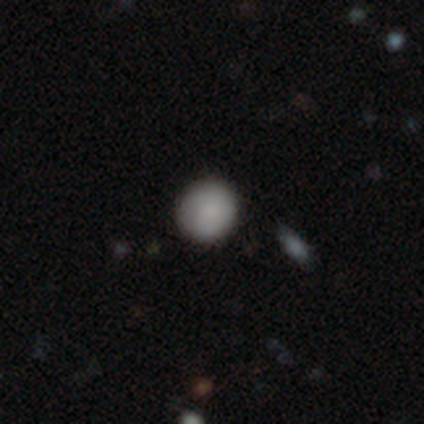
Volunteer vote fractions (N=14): A smooth galaxy with no disk features (79%) that is round (91%). Merging: none (100%).